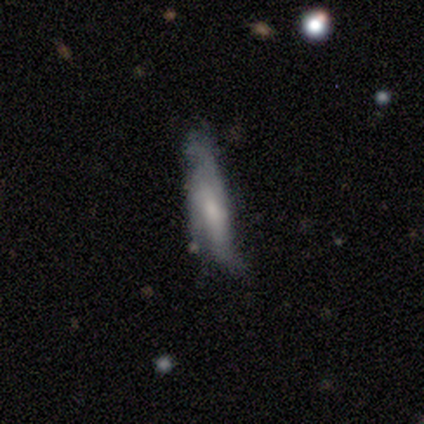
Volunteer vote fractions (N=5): Smooth or featured? smooth (40%, tied with featured or disk)
How rounded? cigar-shaped (100%)
Merging? none (25%, tied with minor disturbance, major disturbance and merger)